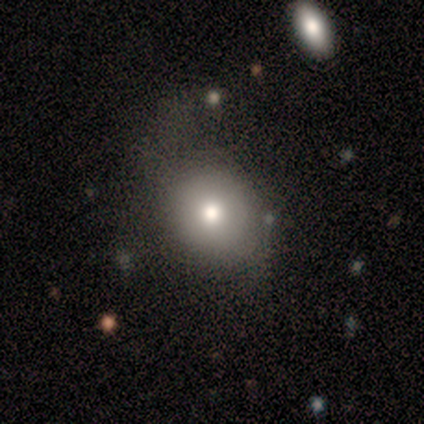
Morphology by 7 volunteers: smooth 57%, star or artifact 29%, featured or disk 14%. Down the decision tree: how rounded — round (50%, tied with in between); merging — none (60%).